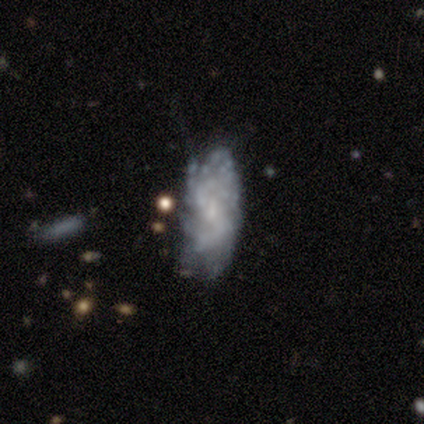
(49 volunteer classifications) Volunteers were most divided on "bar" (2-way tie): weak: 47%, no: 47%, strong: 6%. Remaining: edge-on disk — no (100%); spiral arms — yes (74%); spiral winding — tight (72%); smooth or featured — featured or disk (69%); spiral arm count — can't tell (56%); bulge size — small (47%); merging — none (39%).